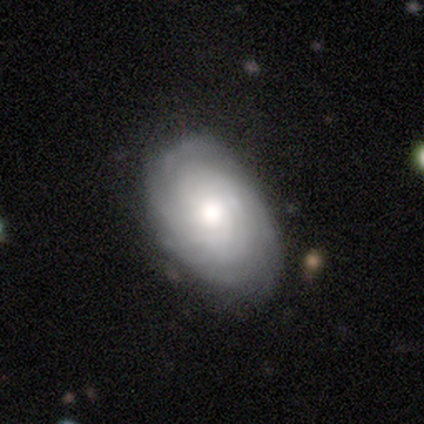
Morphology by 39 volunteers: A featured or disk galaxy (77%) with no bar (86%), tight (69%) spiral arms (90%) and a moderate central bulge (62%). Merging: none (78%).